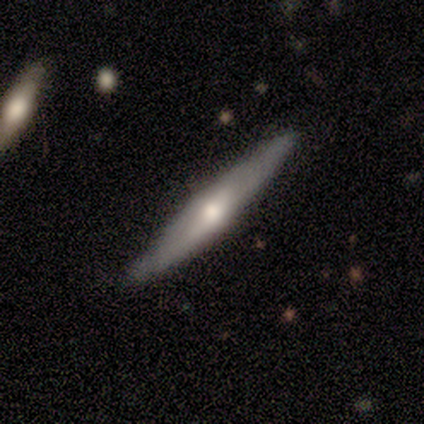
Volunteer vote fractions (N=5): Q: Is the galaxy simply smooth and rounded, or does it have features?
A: featured or disk — 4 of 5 (80%).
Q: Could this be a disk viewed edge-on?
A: yes — 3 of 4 (75%).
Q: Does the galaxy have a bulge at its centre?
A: rounded — 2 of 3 (67%).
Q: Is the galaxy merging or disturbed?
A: none — 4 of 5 (80%).